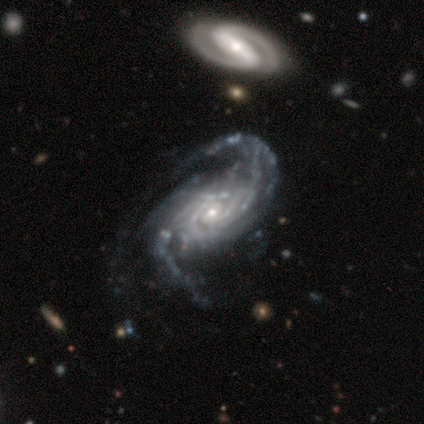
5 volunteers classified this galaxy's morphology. A featured or disk galaxy (100%) with no bar (100%), tight (80%) spiral arms (100%) and a small central bulge (100%). Merging: none (60%).